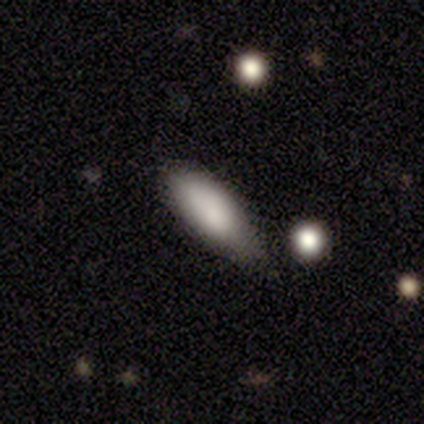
Smooth or featured? 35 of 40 (88%) said smooth. How rounded? 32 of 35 (91%) said in between. Merging? 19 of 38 (50%) said minor disturbance.